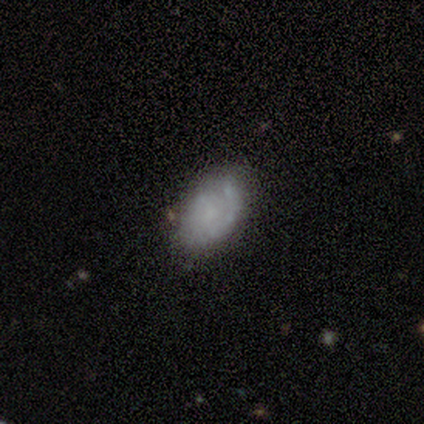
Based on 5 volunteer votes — Smooth or featured? 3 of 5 (60%) said smooth. How rounded? 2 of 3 (67%) said in between. Merging? 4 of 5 (80%) said none.